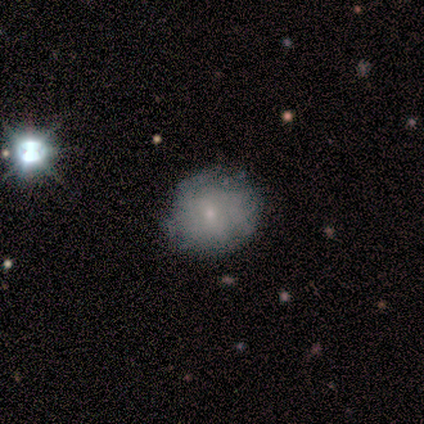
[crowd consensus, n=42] featured or disk 57%, smooth 36%, star or artifact 7%. Down the decision tree: edge-on disk — no (100%); bar — no (83%); spiral arms — no (62%); bulge size — small (79%); merging — none (72%).